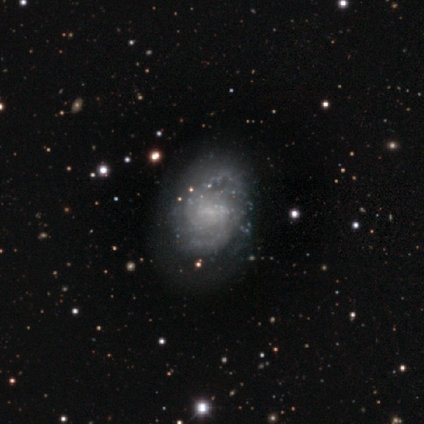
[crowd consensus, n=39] smooth-or-featured: featured or disk: 79% | star or artifact: 13% | smooth: 8%
  disk-edge-on: no: 97% | yes: 3%
    bar: weak: 53% | no: 43% | strong: 3%
    has-spiral-arms: yes: 87% | no: 13%
      spiral-winding: medium: 50% | tight: 42% | loose: 8%
      spiral-arm-count: 2: 58% | can't tell: 23% | 3: 12% | 4: 4% | more than 4: 4% | 1: 0%
    bulge-size: none: 60% | small: 37% | large: 3% | dominant: 0% | moderate: 0%
  merging: none: 65% | minor disturbance: 32% | major disturbance: 3% | merger: 0%